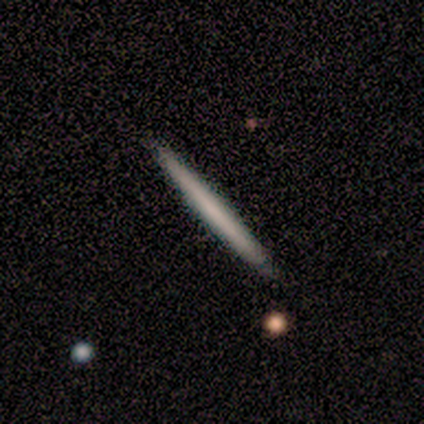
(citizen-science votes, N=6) This is clearly a featured or disk galaxy (83%). It is clearly viewed edge-on (100%). Edge-on bulge: clearly none (80%). Merging: likely none (67%).